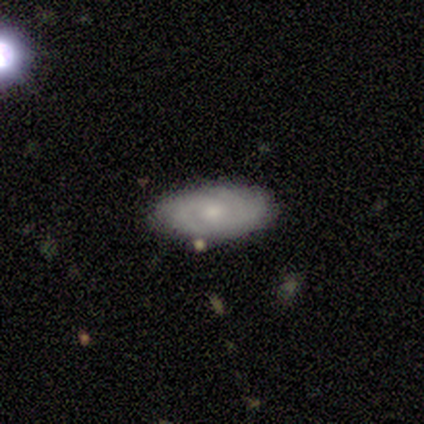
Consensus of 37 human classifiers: Smooth or featured?
  - featured or disk: 65% *
  - smooth: 27%
  - star or artifact: 8%
Edge-on disk?
  - no: 100% *
  - yes: 0%
Bar?
  - no: 71% *
  - weak: 29%
  - strong: 0%
Spiral arms?
  - yes: 79% *
  - no: 21%
Spiral winding?
  - tight: 84% *
  - medium: 11%
  - loose: 5%
Spiral arm count?
  - 2: 53% *
  - can't tell: 21%
  - 3: 16%
  - 4: 11%
  - 1: 0%
  - more than 4: 0%
Bulge size?
  - moderate: 50% * (tied)
  - small: 50% * (tied)
  - dominant: 0%
  - large: 0%
  - none: 0%
Merging?
  - none: 91% *
  - minor disturbance: 9%
  - major disturbance: 0%
  - merger: 0%